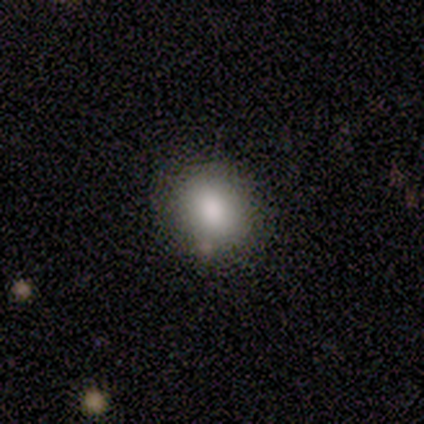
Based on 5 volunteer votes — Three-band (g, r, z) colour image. It shows a smooth galaxy with no disk features (80%) that is round (100%). Merging: none (100%).